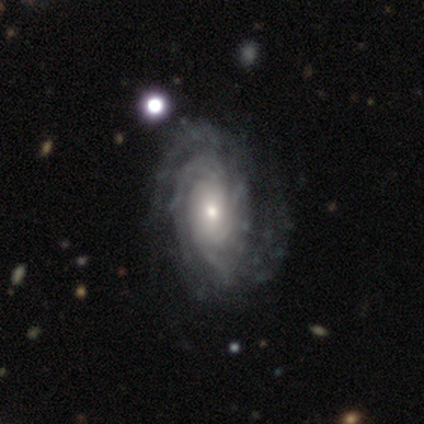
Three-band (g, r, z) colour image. It shows a featured or disk galaxy (95%) with no bar (63%), tight (68%) spiral arms (97%) and a small central bulge (43%). Merging: none (45%).